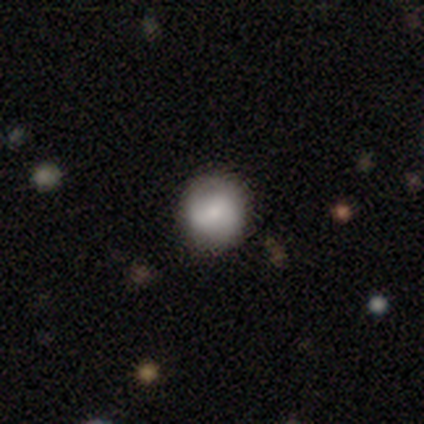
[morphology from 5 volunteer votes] A smooth galaxy with no disk features (100%) that is round (100%).

Vote fractions:
- Smooth or featured? smooth: 100% / featured or disk: 0% / star or artifact: 0%
- How rounded? round: 100% / in between: 0% / cigar-shaped: 0%
- Merging? none: 100% / minor disturbance: 0% / major disturbance: 0% / merger: 0%